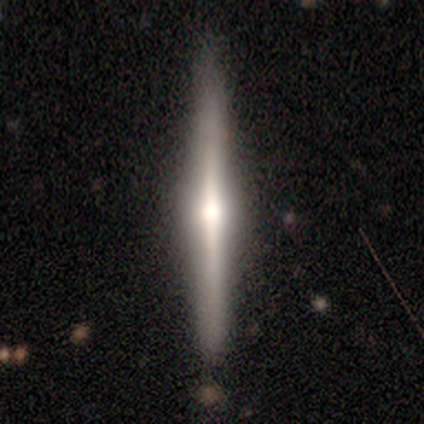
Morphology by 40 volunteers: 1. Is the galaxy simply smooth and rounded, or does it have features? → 72% featured or disk, 25% smooth, 2% star or artifact.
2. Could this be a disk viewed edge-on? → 100% yes, 0% no.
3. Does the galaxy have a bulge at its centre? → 93% rounded, 3% boxy, 3% none.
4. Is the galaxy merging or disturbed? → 92% none, 5% merger, 3% minor disturbance, 0% major disturbance.